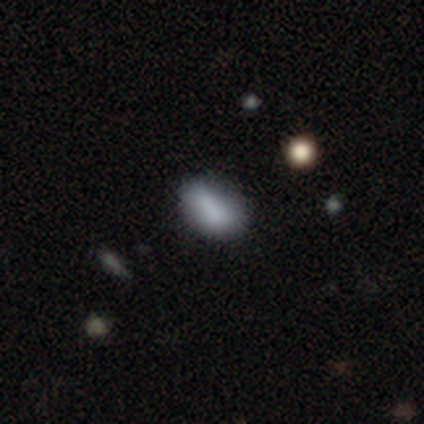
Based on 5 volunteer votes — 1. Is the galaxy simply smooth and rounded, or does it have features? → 100% smooth, 0% featured or disk, 0% star or artifact.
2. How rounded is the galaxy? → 100% in between, 0% round, 0% cigar-shaped.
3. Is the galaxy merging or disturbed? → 80% none, 20% minor disturbance, 0% major disturbance, 0% merger.